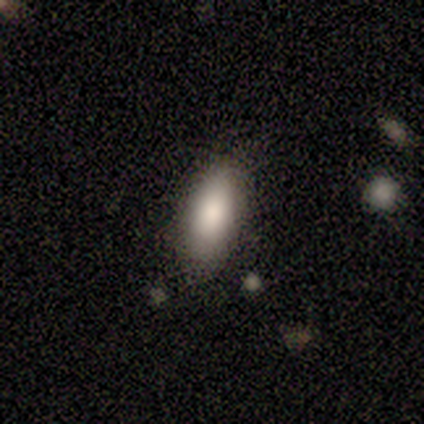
Smooth or featured? smooth (80%)
How rounded? in between (75%)
Merging? none (100%)